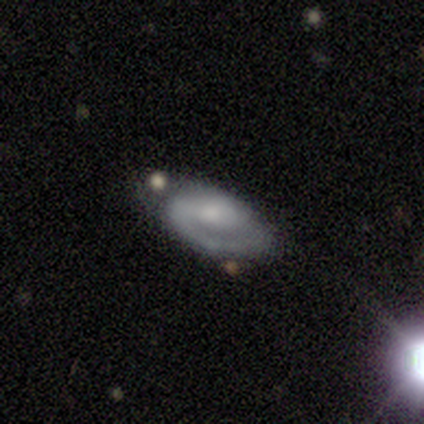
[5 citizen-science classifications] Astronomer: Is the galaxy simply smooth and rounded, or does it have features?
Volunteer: featured or disk — 100%.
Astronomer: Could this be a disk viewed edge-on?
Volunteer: no — 100%.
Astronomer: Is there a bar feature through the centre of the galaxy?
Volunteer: strong — 40%, tied with no at 40%.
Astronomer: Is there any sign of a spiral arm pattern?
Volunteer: yes — 100%.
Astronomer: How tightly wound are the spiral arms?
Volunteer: medium — 80%.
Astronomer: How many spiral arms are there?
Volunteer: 2 — 60% (runner-up: 1, 40%).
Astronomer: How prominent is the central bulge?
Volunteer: small — 60%.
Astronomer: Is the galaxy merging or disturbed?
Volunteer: none — 80%.